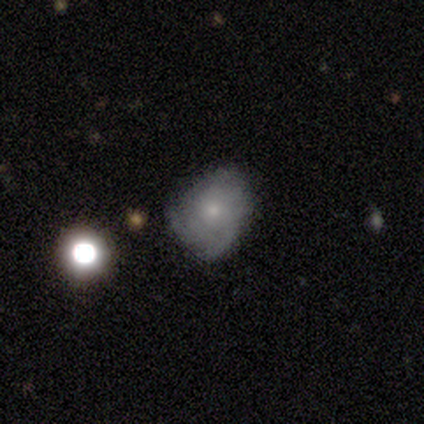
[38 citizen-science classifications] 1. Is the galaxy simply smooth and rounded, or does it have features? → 66% featured or disk, 32% smooth, 3% star or artifact.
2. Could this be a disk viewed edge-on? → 92% no, 8% yes.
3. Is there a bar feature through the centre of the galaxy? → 87% no, 9% strong, 4% weak.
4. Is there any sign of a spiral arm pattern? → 87% yes, 13% no.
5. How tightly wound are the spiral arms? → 50% tight, 35% medium, 15% loose.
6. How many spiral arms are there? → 45% 3, 30% can't tell, 15% 2, 5% 4, 5% more than 4, 0% 1.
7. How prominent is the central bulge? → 65% small, 26% moderate, 4% large, 4% none, 0% dominant.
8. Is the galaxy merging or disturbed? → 62% none, 22% minor disturbance, 14% major disturbance, 3% merger.